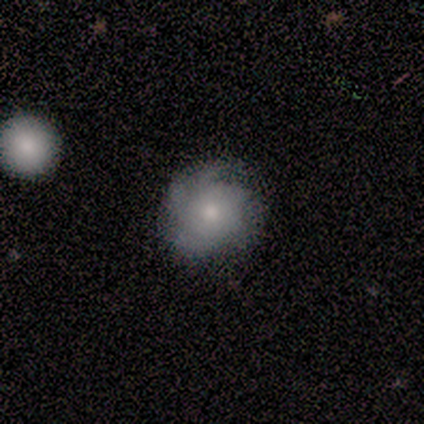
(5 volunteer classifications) smooth_or_featured: featured or disk (p=0.80) [alt: smooth p=0.20]
disk_edge_on: no (p=1.00)
bar: no (p=0.75) [alt: weak p=0.25]
has_spiral_arms: yes (p=1.00)
spiral_winding: tight (p=0.50) [tied with: medium p=0.50]
spiral_arm_count: 1 (p=0.25) [tied with: 3 p=0.25, 4 p=0.25, more than 4 p=0.25]
bulge_size: moderate (p=0.50) [tied with: small p=0.50]
merging: none (p=0.80) [alt: minor disturbance p=0.20]